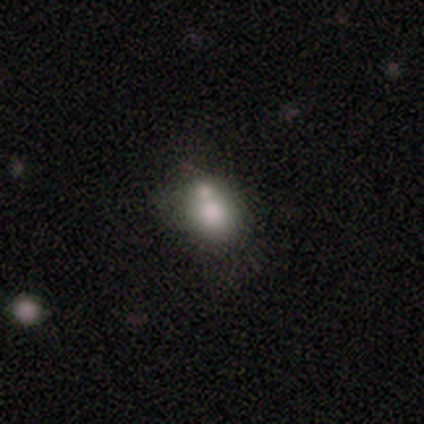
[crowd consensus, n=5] Smooth or featured? featured or disk (60%)
Edge-on disk? no (100%)
Bar? no (100%)
Spiral arms? no (100%)
Bulge size? large (67%)
Merging? merger (80%)